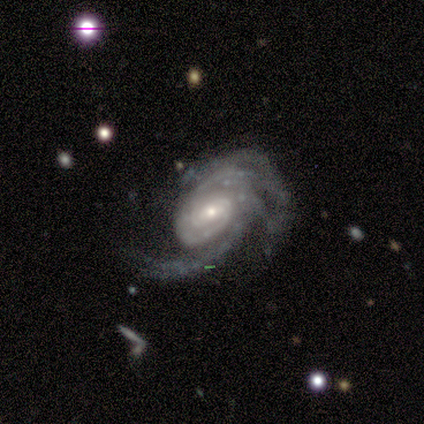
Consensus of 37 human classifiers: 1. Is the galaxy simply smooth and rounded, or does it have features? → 92% featured or disk, 5% star or artifact, 3% smooth.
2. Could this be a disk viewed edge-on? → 100% no, 0% yes.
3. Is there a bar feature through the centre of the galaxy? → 38% weak (tied), 38% no (tied), 24% strong.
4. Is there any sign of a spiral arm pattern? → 94% yes, 6% no.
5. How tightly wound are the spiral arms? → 62% tight, 22% medium, 16% loose.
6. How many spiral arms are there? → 41% 2, 28% 3, 12% 1, 12% can't tell, 6% 4, 0% more than 4.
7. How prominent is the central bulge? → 47% small, 38% moderate, 12% large, 3% none, 0% dominant.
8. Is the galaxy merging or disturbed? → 49% none, 34% major disturbance, 14% minor disturbance, 3% merger.